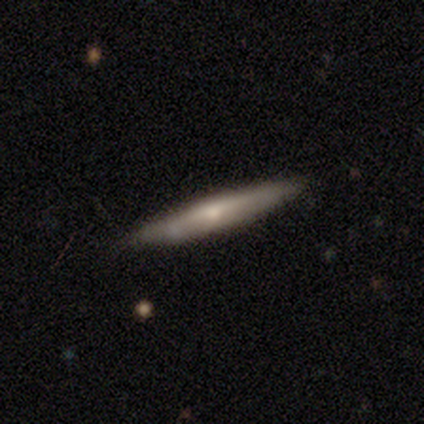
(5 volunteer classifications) smooth_or_featured: featured or disk (p=0.80) [alt: star or artifact p=0.20]
disk_edge_on: yes (p=1.00)
edge_on_bulge: boxy (p=0.50) [tied with: rounded p=0.50]
merging: none (p=0.75) [alt: minor disturbance p=0.25]